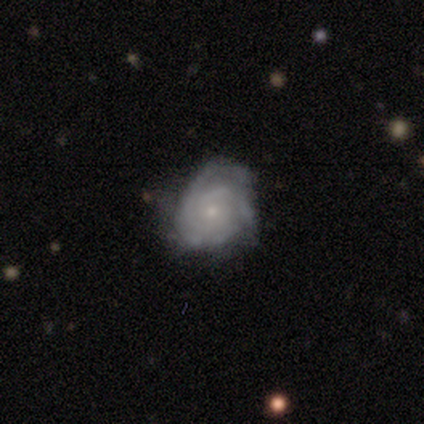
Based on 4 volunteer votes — Smooth or featured? 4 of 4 (100%) said featured or disk. Edge-on disk? 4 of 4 (100%) said no. Bar? 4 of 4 (100%) said no. Spiral arms? 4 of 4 (100%) said yes. Spiral winding? 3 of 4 (75%) said tight. Spiral arm count? 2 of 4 (50%) said 3. Bulge size? 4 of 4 (100%) said small. Merging? 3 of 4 (75%) said none.